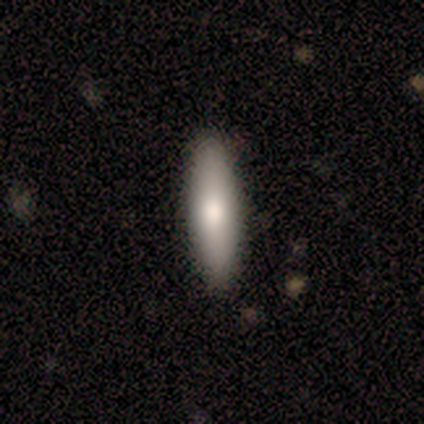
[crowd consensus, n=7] Smooth or featured? 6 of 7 (86%) said smooth. How rounded? 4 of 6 (67%) said cigar-shaped. Merging? 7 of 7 (100%) said none.